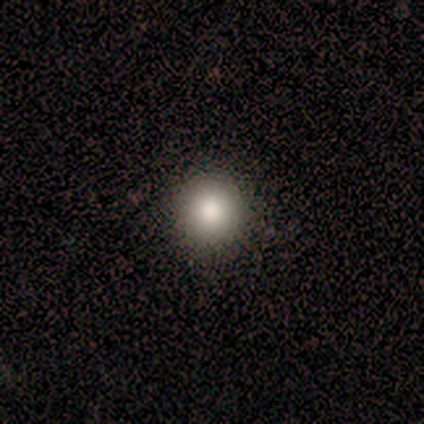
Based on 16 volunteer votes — Overall: smooth (81%). How rounded: round (100%). Merging: none (100%).